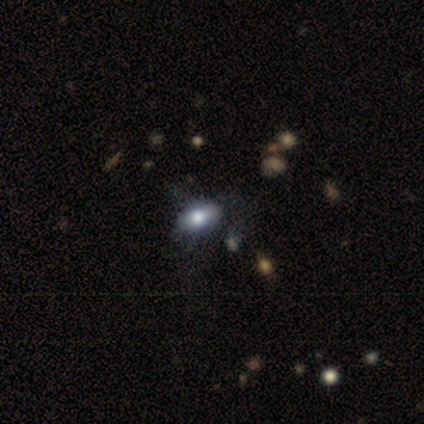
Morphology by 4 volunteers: A smooth galaxy with no disk features (75%) that is in between round and cigar-shaped (67%). Merging: none (100%).